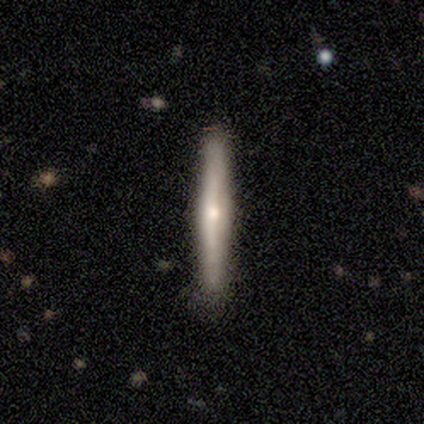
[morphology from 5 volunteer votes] Volunteers were most divided on "edge-on bulge": rounded: 75%, boxy: 25%, none: 0%. More confident: edge-on disk — yes (100%); merging — none (100%); smooth or featured — featured or disk (80%).